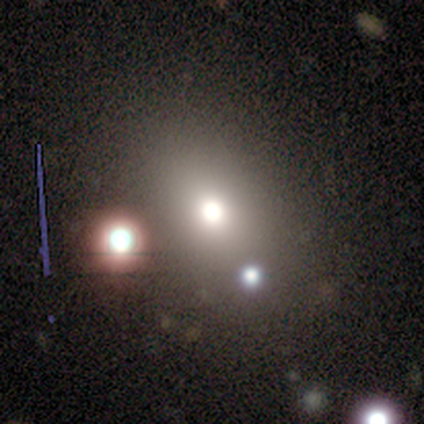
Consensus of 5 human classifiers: Overall: smooth (60%; featured or disk 20%). How rounded: round (67%; in between 33%). Merging: none (50%, tied with major disturbance).